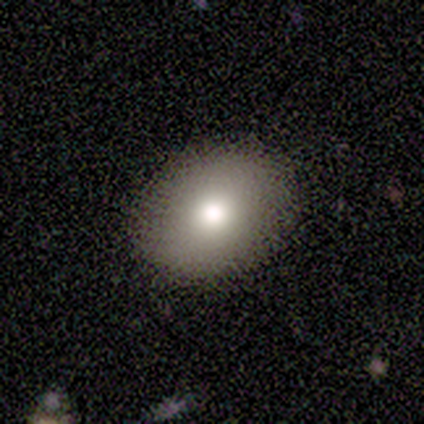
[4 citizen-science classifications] A smooth galaxy with no disk features (75%) that is in between round and cigar-shaped (67%).

Vote fractions:
- Smooth or featured? smooth: 75% / star or artifact: 25% / featured or disk: 0%
- How rounded? in between: 67% / round: 33% / cigar-shaped: 0%
- Merging? none: 100% / minor disturbance: 0% / major disturbance: 0% / merger: 0%